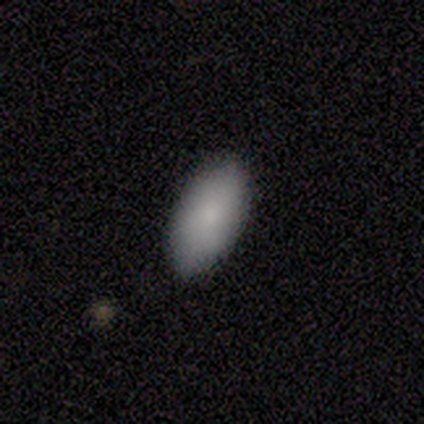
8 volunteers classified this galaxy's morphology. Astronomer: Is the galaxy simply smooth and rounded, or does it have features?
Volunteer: smooth — 100%.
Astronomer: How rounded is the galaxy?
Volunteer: in between — 100%.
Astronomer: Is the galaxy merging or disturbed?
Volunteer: none — 75%.